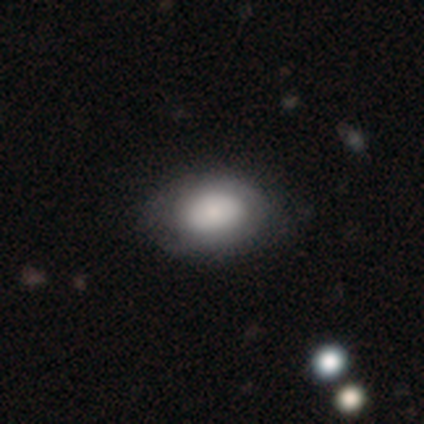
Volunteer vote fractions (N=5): smooth-or-featured: smooth: 80% | featured or disk: 20% | star or artifact: 0%
  how-rounded: in between: 75% | round: 25% | cigar-shaped: 0%
  merging: none: 80% | minor disturbance: 20% | major disturbance: 0% | merger: 0%